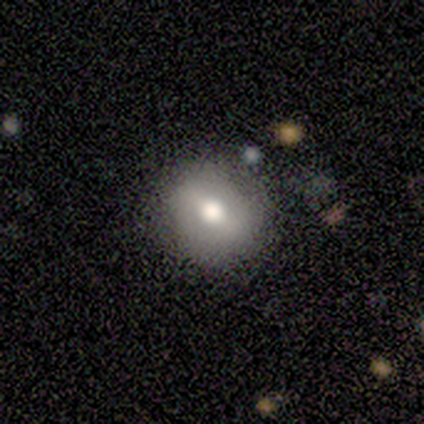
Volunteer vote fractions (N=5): A smooth galaxy with no disk features (60%) that is round (67%).

Vote fractions:
- Smooth or featured? smooth: 60% / featured or disk: 20% / star or artifact: 20%
- How rounded? round: 67% / in between: 33% / cigar-shaped: 0%
- Merging? none: 100% / minor disturbance: 0% / major disturbance: 0% / merger: 0%